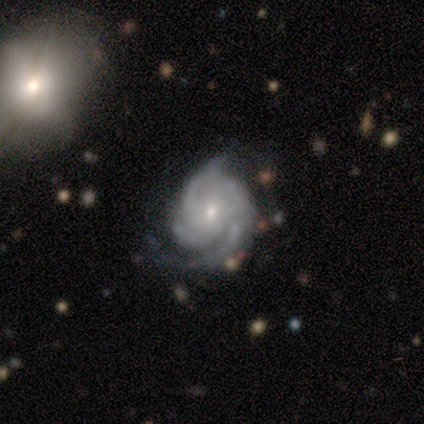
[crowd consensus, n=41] A featured or disk galaxy (95%) with no bar (55%), 3 (61%) medium (47%) spiral arms (100%) and a small central bulge (61%).

Vote fractions:
- Smooth or featured? featured or disk: 95% / smooth: 5% / star or artifact: 0%
- Edge-on disk? no: 97% / yes: 3%
- Bar? no: 55% / weak: 32% / strong: 13%
- Spiral arms? yes: 100% / no: 0%
- Spiral winding? medium: 47% / tight: 45% / loose: 8%
- Spiral arm count? 3: 61% / can't tell: 18% / 4: 13% / 2: 8% / 1: 0% / more than 4: 0%
- Bulge size? small: 61% / moderate: 39% / dominant: 0% / large: 0% / none: 0%
- Merging? none: 49% / minor disturbance: 32% / major disturbance: 20% / merger: 0%